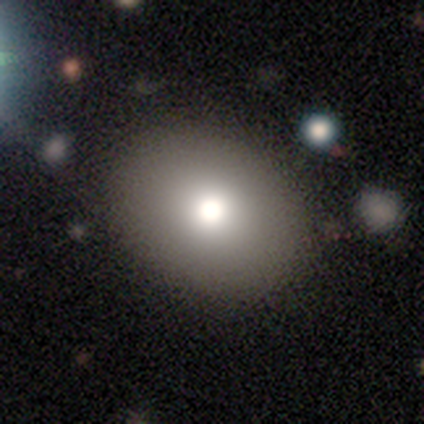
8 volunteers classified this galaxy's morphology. type=smooth (75%); roundness=round (50%, tied with in between); merging=none (100%).